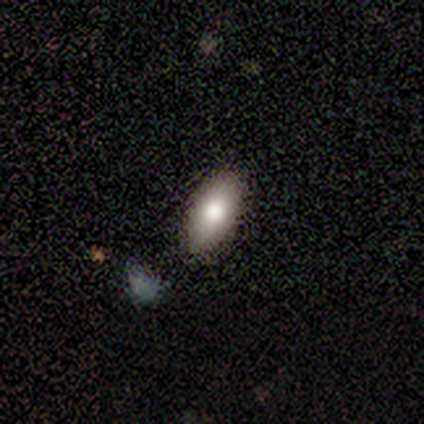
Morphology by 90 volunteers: This appears to be a smooth galaxy with no disk features (80%) that is in between round and cigar-shaped (85%). Merging: none (83%).